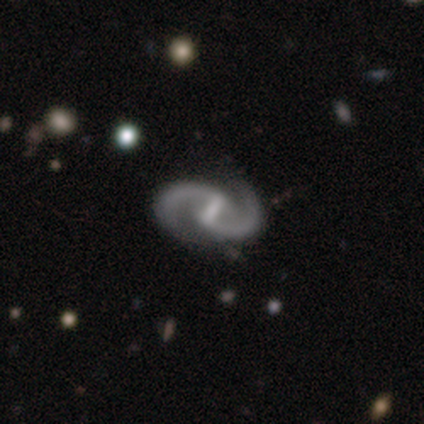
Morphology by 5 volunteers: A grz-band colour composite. It shows a featured or disk galaxy (80%) with a strong bar (75%), 2 (100%) medium (75%) spiral arms (100%) and a small central bulge (100%). Merging: none (100%).